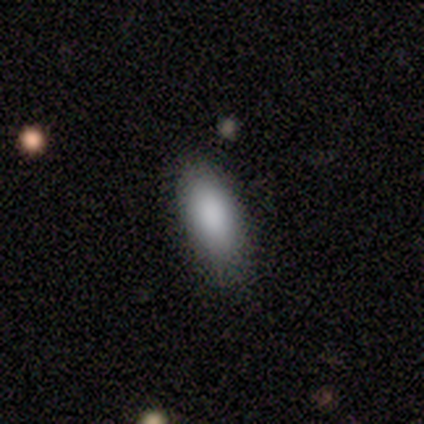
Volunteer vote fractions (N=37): A smooth galaxy with no disk features (95%) that is in between round and cigar-shaped (89%).

Vote fractions:
- Smooth or featured? smooth: 95% / featured or disk: 5% / star or artifact: 0%
- How rounded? in between: 89% / cigar-shaped: 9% / round: 3%
- Merging? none: 81% / minor disturbance: 14% / merger: 5% / major disturbance: 0%